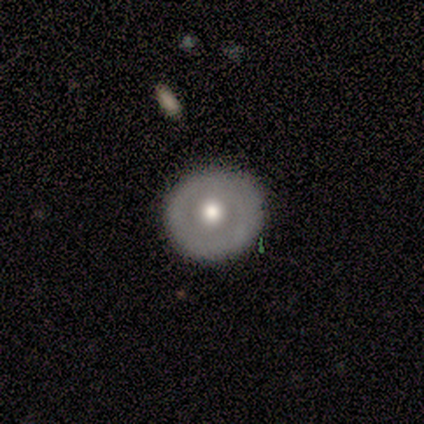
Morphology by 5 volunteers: Smooth or featured? smooth (100%)
How rounded? round (100%)
Merging? none (100%)